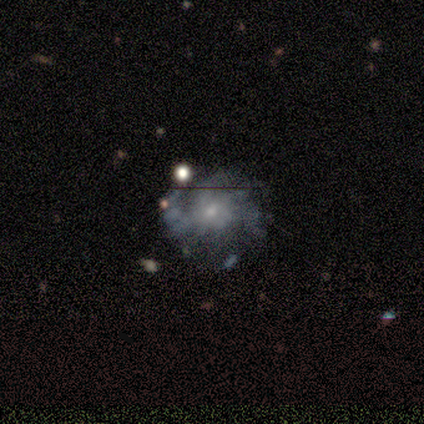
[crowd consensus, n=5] Smooth or featured? 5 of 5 (100%) said featured or disk. Edge-on disk? 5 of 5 (100%) said no. Bar? 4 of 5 (80%) said no. Spiral arms? 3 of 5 (60%) said yes. Spiral winding? 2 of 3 (67%) said medium. Spiral arm count? 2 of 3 (67%) said 2. Bulge size? 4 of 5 (80%) said small. Merging? 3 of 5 (60%) said none.